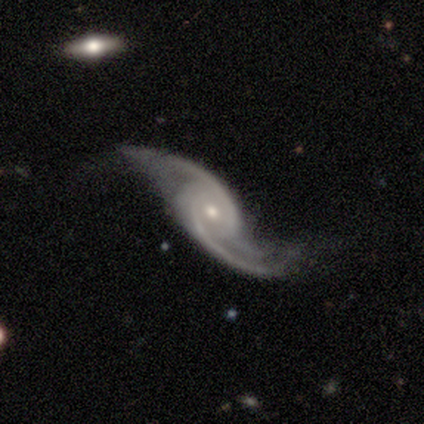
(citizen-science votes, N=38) Morphology: type=featured or disk (89%); edge-on=no (100%); bar=no (62%); spiral arms=yes (97%); winding=loose (64%); arm count=2 (85%); bulge=small (50%); merging=none (60%).